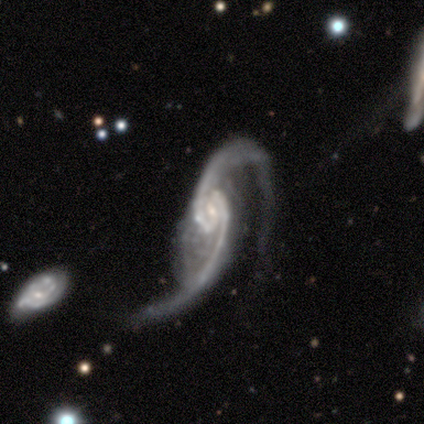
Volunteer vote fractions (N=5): Q: Smooth or featured?
A: featured or disk (60%); runner-up: smooth (20%)
Q: Edge-on disk?
A: no (100%)
Q: Bar?
A: no (100%)
Q: Spiral arms?
A: yes (67%); runner-up: no (33%)
Q: Spiral winding?
A: loose (100%)
Q: Spiral arm count?
A: 2 (100%)
Q: Bulge size?
A: small (67%); runner-up: none (33%)
Q: Merging?
A: major disturbance (75%); runner-up: minor disturbance (25%)